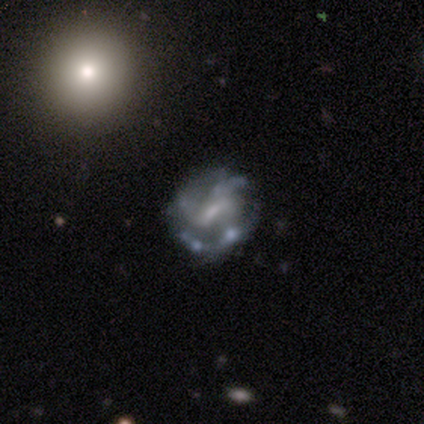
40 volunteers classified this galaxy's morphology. smooth-or-featured: featured or disk: 92% | star or artifact: 5% | smooth: 2%
  disk-edge-on: no: 100% | yes: 0%
    bar: weak: 54% | strong: 30% | no: 16%
    has-spiral-arms: yes: 81% | no: 19%
      spiral-winding: medium: 63% | loose: 23% | tight: 13%
      spiral-arm-count: 3: 40% | can't tell: 33% | 2: 13% | 4: 13% | 1: 0% | more than 4: 0%
    bulge-size: small: 51% | none: 35% | moderate: 11% | large: 3% | dominant: 0%
  merging: none: 55% | minor disturbance: 24% | major disturbance: 16% | merger: 5%